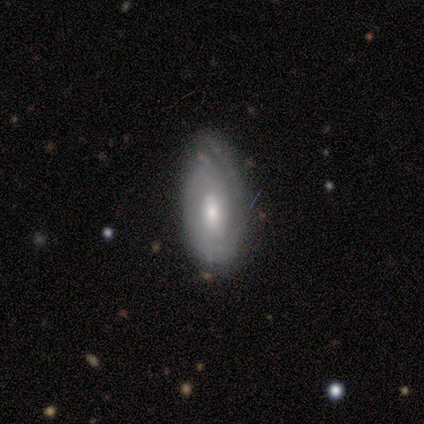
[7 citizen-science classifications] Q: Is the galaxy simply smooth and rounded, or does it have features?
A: featured or disk — 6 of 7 (86%).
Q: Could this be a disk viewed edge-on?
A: no — 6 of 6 (100%).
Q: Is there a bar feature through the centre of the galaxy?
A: strong — 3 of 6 (50%, tied with no).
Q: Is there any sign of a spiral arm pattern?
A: yes — 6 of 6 (100%).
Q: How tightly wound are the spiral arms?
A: medium — 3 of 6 (50%).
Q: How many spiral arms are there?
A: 2 — 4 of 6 (67%).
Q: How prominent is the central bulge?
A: moderate — 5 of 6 (83%).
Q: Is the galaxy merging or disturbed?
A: none — 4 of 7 (57%).